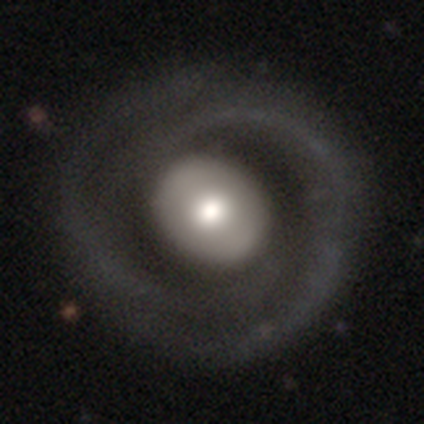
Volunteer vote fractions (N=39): Overall: featured or disk (79%). Edge-on disk: no (97%). Bar: no (57%; strong 23%). Spiral arms: yes (87%). Spiral arm count: 2 (85%). Spiral winding: tight (65%). Bulge size: moderate (47%; large 40%). Merging: none (38%; major disturbance 16%).